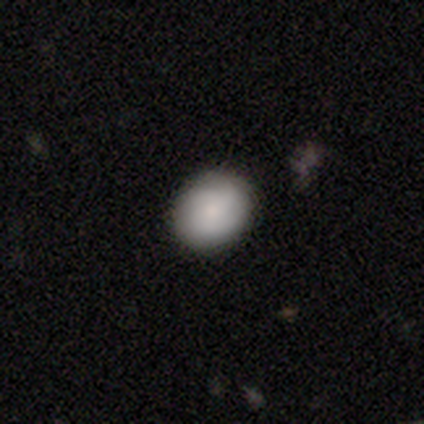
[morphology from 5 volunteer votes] Volunteers were most divided on "how rounded": round: 60%, in between: 40%, cigar-shaped: 0%. More confident: smooth or featured — smooth (100%); merging — none (80%).